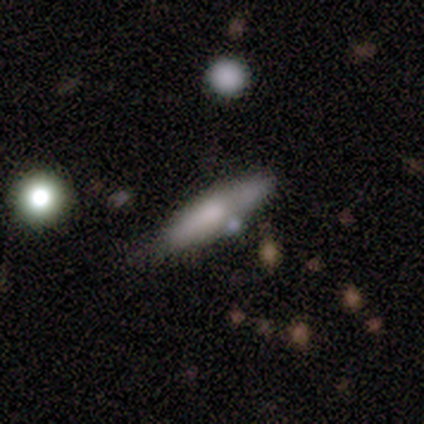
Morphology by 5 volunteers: smooth-or-featured: featured or disk: 60% | smooth: 40% | star or artifact: 0%
  disk-edge-on: yes: 67% | no: 33%
    edge-on-bulge: boxy: 50% (tied) | none: 50% (tied) | rounded: 0%
  merging: minor disturbance: 60% | none: 20% | merger: 20% | major disturbance: 0%